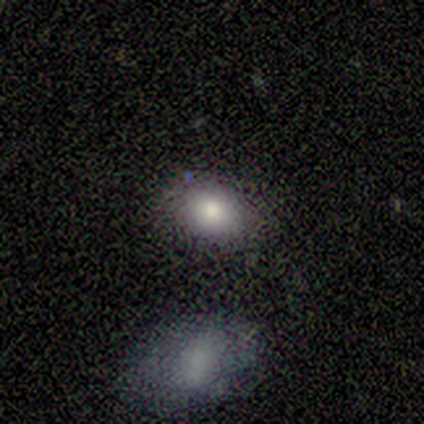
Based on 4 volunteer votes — Morphology: type=smooth (100%); roundness=round (50%, tied with in between); merging=none (50%).